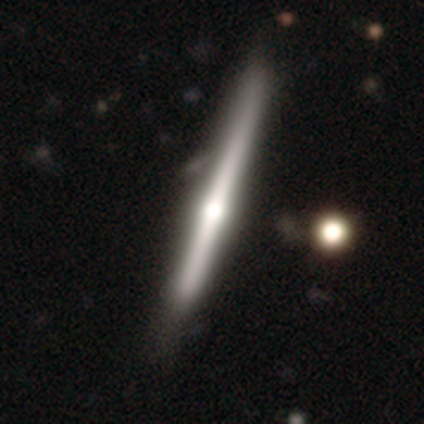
A featured or disk galaxy (85%) viewed edge-on (97%) with a rounded central bulge (84%).

Vote fractions:
- Smooth or featured? featured or disk: 85% / smooth: 8% / star or artifact: 8%
- Edge-on disk? yes: 97% / no: 3%
- Edge-on bulge? rounded: 84% / none: 9% / boxy: 6%
- Merging? none: 67% / minor disturbance: 33% / major disturbance: 0% / merger: 0%